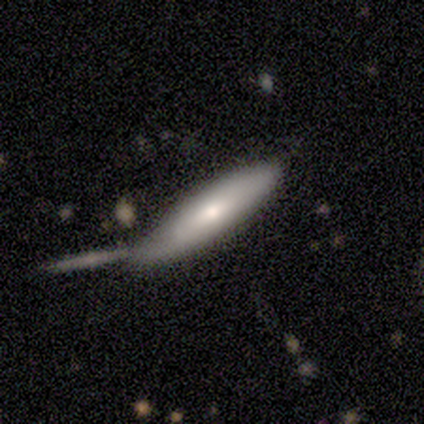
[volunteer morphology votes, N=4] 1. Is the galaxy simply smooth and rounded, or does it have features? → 50% featured or disk, 25% smooth, 25% star or artifact.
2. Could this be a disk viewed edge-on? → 100% yes, 0% no.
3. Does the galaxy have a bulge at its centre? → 100% rounded, 0% boxy, 0% none.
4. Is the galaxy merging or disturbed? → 33% none (tied), 33% minor disturbance (tied), 33% merger (tied), 0% major disturbance.